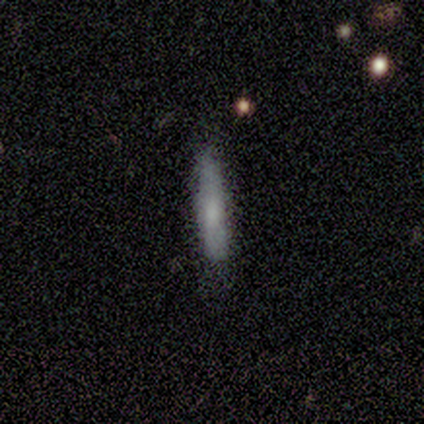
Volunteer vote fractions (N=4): Smooth or featured? 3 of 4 (75%) said smooth. How rounded? 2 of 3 (67%) said cigar-shaped. Merging? 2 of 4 (50%) said none.